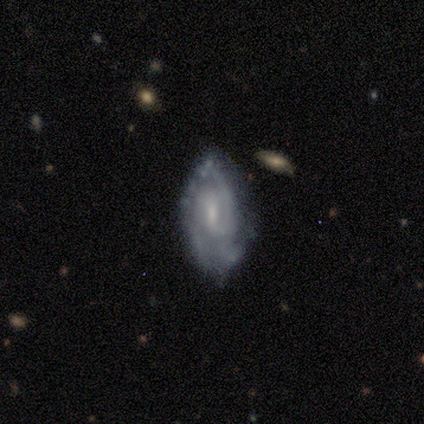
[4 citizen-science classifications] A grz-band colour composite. It shows a featured or disk galaxy (75%) with no bar (67%), 2 (50%, tied with can't tell) tight (50%, tied with medium) spiral arms (67%) and a moderate central bulge (100%). Merging: none (100%).